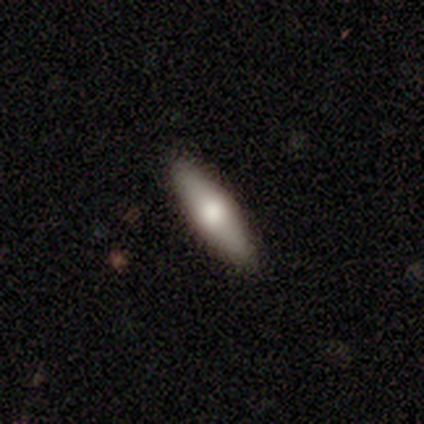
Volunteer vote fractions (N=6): Morphology: type=smooth (83%); roundness=cigar-shaped (60%); merging=none (83%).